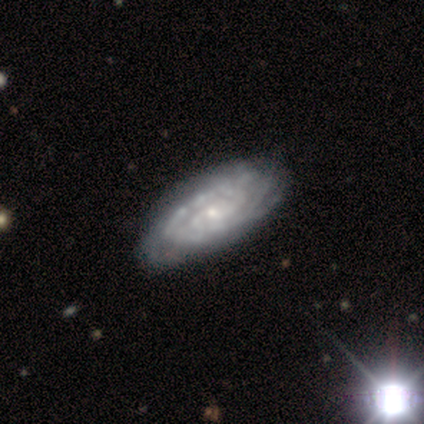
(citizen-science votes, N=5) This is clearly a featured or disk galaxy (100%). It is clearly not viewed edge-on (80%). Bar: likely no (75%). Spiral arm pattern: clearly yes (100%). Spiral arm count: possibly can't tell (50%). Spiral winding: likely tight (75%). Central bulge: clearly small (100%). Merging: clearly none (80%).